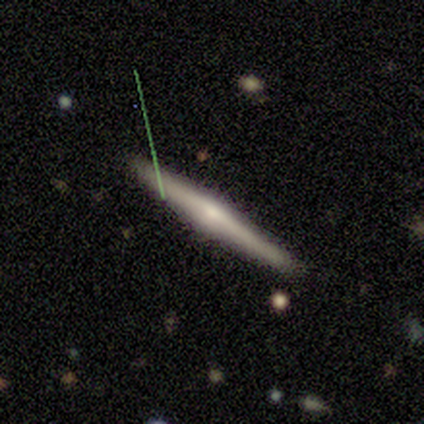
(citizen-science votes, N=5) smooth_or_featured: featured or disk (p=0.80) [alt: smooth p=0.20]
disk_edge_on: yes (p=1.00)
edge_on_bulge: rounded (p=0.75) [alt: none p=0.25]
merging: none (p=1.00)